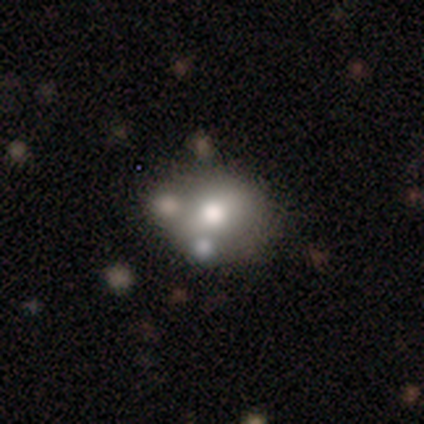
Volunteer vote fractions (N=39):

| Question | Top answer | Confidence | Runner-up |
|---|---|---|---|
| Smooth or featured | smooth | 46% | featured or disk (36%) |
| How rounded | in between | 56% | round (44%) |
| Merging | none | 53% | minor disturbance (22%) |